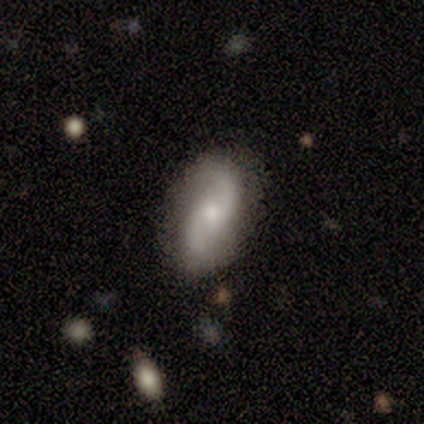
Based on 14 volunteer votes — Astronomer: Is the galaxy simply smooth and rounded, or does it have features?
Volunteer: featured or disk — 86%.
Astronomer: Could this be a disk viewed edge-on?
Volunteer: no — 92%.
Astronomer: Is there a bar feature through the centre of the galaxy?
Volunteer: no — 73%.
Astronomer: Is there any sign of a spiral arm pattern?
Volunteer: yes — 91%.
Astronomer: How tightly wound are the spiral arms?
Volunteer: loose — 60% (runner-up: medium, 40%).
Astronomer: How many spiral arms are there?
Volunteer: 2 — 90%.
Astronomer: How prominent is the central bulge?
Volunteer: moderate — 55% (runner-up: small, 45%).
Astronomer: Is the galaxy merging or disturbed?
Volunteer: none — 79%.